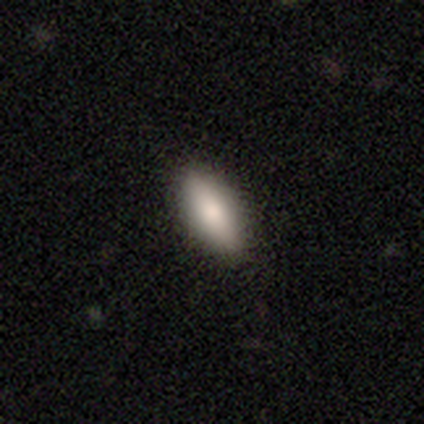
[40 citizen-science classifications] Volunteers were most divided on "how rounded": in between: 79%, cigar-shaped: 21%, round: 0%. More confident: merging — none (92%); smooth or featured — smooth (82%).